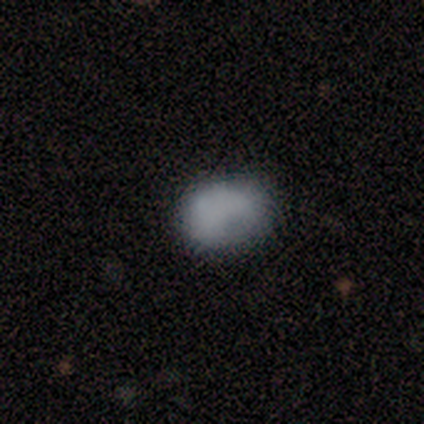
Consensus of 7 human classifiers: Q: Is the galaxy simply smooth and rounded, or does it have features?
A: smooth — 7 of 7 (100%).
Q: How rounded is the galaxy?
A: round — 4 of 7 (57%).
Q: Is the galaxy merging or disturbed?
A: none — 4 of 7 (57%).